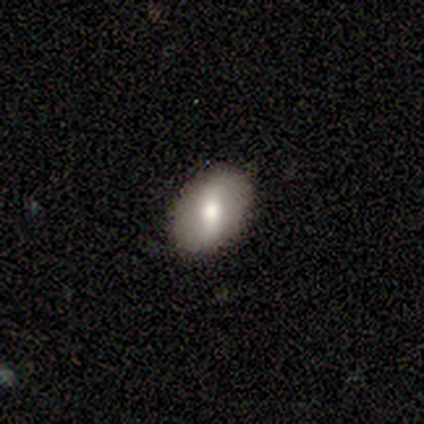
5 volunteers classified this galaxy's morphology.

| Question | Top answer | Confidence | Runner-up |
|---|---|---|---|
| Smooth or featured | smooth | 80% | featured or disk (20%) |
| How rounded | in between | 75% | round (25%) |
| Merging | none | 100% | — |